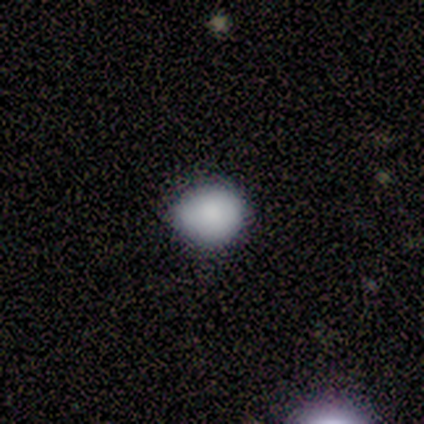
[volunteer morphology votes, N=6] Overall: smooth (83%). How rounded: round (80%). Merging: none (100%).